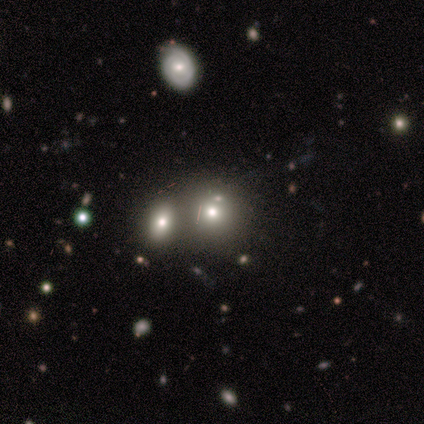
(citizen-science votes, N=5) smooth_or_featured: smooth (p=0.80) [alt: featured or disk p=0.20]
how_rounded: round (p=0.75) [alt: in between p=0.25]
merging: none (p=0.60) [alt: merger p=0.40]